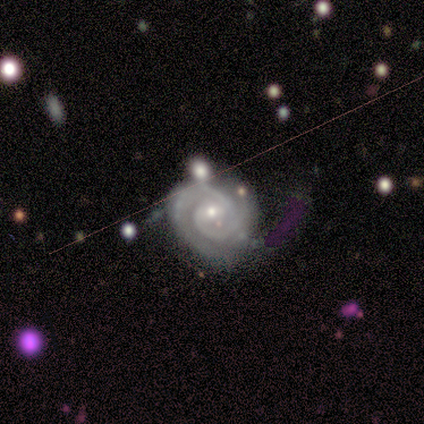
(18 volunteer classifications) smooth-or-featured: featured or disk: 100% | smooth: 0% | star or artifact: 0%
  disk-edge-on: no: 100% | yes: 0%
    bar: weak: 50% (tied) | no: 50% (tied) | strong: 0%
    has-spiral-arms: yes: 100% | no: 0%
      spiral-winding: tight: 72% | medium: 22% | loose: 6%
      spiral-arm-count: 2: 78% | 3: 17% | can't tell: 6% | 1: 0% | 4: 0% | more than 4: 0%
    bulge-size: small: 72% | moderate: 17% | large: 6% | none: 6% | dominant: 0%
  merging: none: 72% | minor disturbance: 11% | major disturbance: 11% | merger: 6%